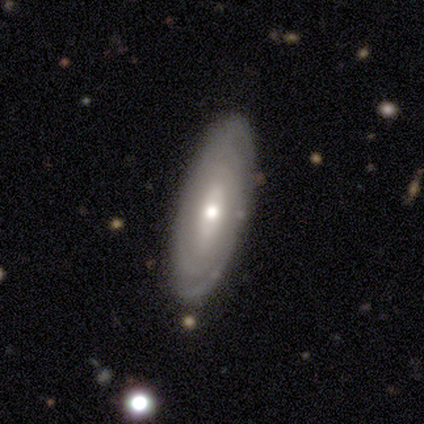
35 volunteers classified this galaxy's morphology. Overall: featured or disk (71%). Edge-on disk: no (84%). Bar: no (76%). Spiral arms: yes (81%). Spiral arm count: can't tell (65%). Spiral winding: tight (88%). Bulge size: moderate (57%; small 33%). Merging: none (88%).